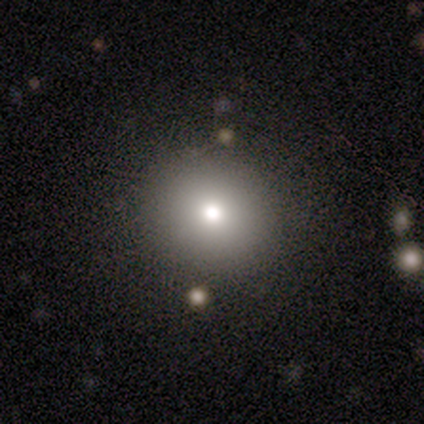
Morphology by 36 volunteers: A smooth galaxy with no disk features (69%) that is round (96%).

Vote fractions:
- Smooth or featured? smooth: 69% / star or artifact: 17% / featured or disk: 14%
- How rounded? round: 96% / in between: 4% / cigar-shaped: 0%
- Merging? none: 93% / major disturbance: 7% / minor disturbance: 0% / merger: 0%